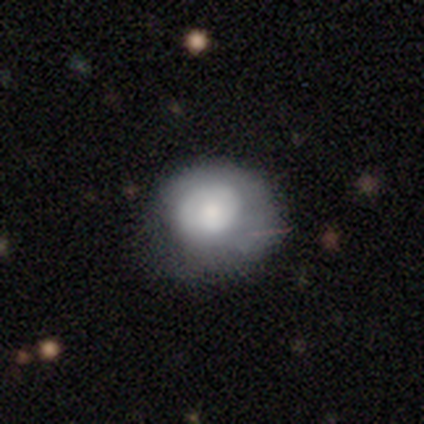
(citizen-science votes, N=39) A smooth galaxy with no disk features (69%) that is round (78%).

Vote fractions:
- Smooth or featured? smooth: 69% / featured or disk: 31% / star or artifact: 0%
- How rounded? round: 78% / in between: 22% / cigar-shaped: 0%
- Merging? none: 38% / major disturbance: 15% / minor disturbance: 5% / merger: 0%